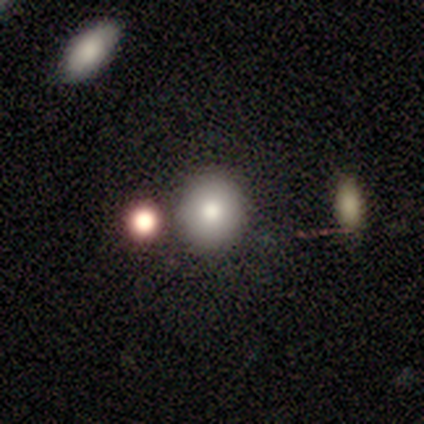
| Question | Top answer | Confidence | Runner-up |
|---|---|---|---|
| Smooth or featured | smooth | 100% | — |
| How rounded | round | 80% | in between (20%) |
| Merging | none | 100% | — |